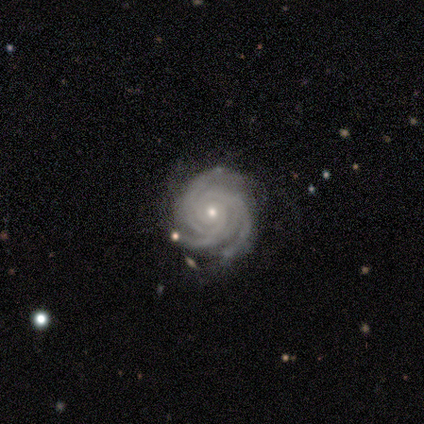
Smooth or featured: featured or disk — 95% (star or artifact — 5%)
Edge-on disk: no — 97% (yes — 3%)
Bar: no — 80% (weak — 14%)
Spiral arms: yes — 100%
Spiral winding: tight — 86% (medium — 14%)
Spiral arm count: 3 — 60% (more than 4 — 17%)
Bulge size: small — 69% (moderate — 31%)
Merging: none — 75% (minor disturbance — 17%)